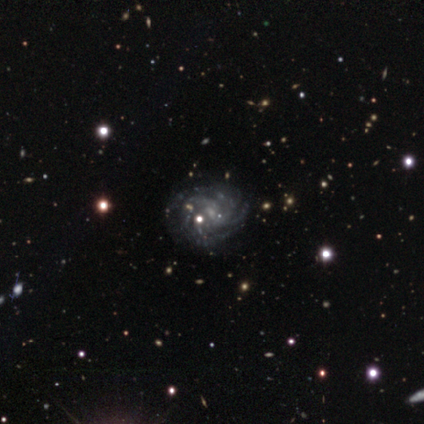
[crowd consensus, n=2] This is clearly a featured or disk galaxy (100%). It is possibly viewed edge-on (50%, tied with no). Edge-on bulge: clearly rounded (100%). Merging: clearly none (100%).